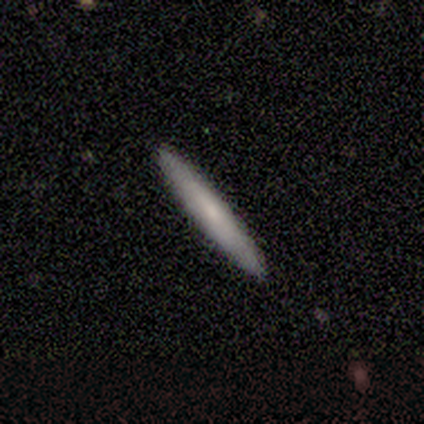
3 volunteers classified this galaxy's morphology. Overall: smooth (67%; featured or disk 33%). How rounded: cigar-shaped (100%). Merging: none (67%; minor disturbance 33%).